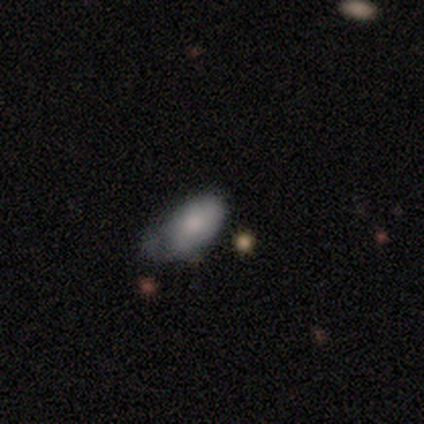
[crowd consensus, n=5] Smooth or featured? smooth (100%)
How rounded? in between (100%)
Merging? minor disturbance (80%)